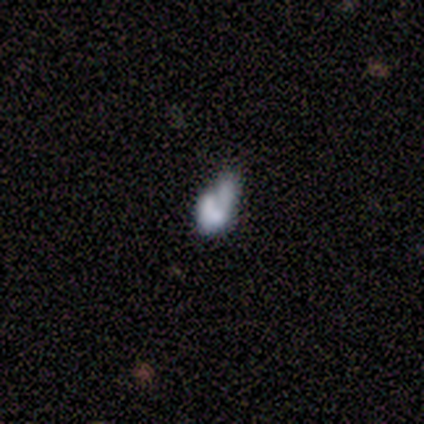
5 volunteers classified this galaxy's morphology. This is likely a smooth galaxy (60%). How rounded: clearly in between (100%). Merging: marginally none (40%, tied with minor disturbance).